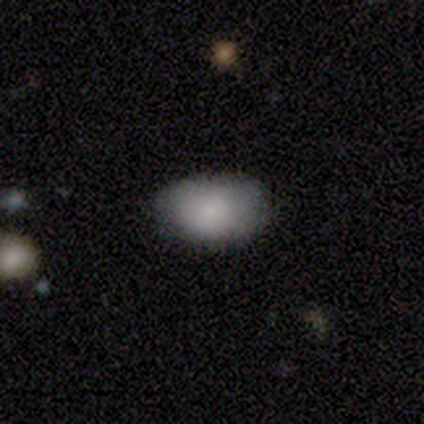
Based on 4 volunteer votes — This appears to be a smooth galaxy with no disk features (100%) that is in between round and cigar-shaped (100%). Merging: none (100%).